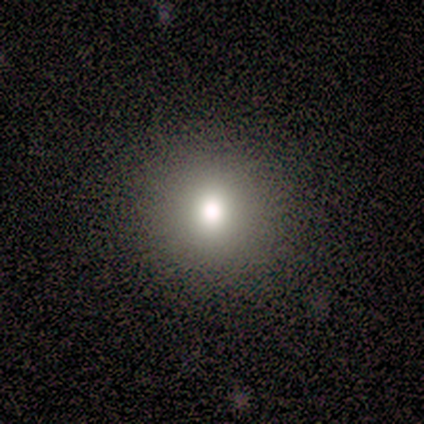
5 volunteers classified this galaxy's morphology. This is clearly a smooth galaxy (100%). How rounded: clearly round (100%). Merging: clearly none (100%).